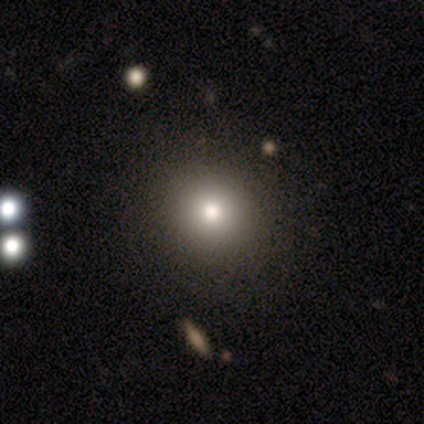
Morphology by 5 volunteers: This is clearly a smooth galaxy (80%). How rounded: likely round (75%). Merging: clearly none (100%).